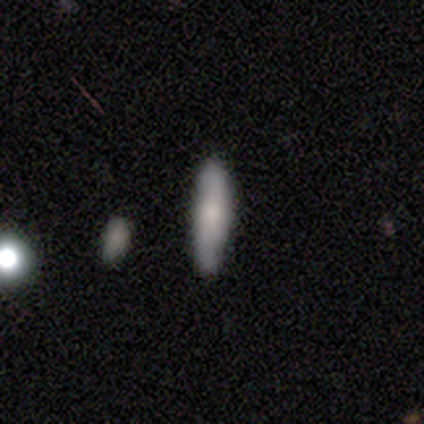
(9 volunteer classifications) Volunteers were most divided on "how rounded": cigar-shaped: 71%, in between: 29%, round: 0%. More confident: merging — none (89%); smooth or featured — smooth (78%).